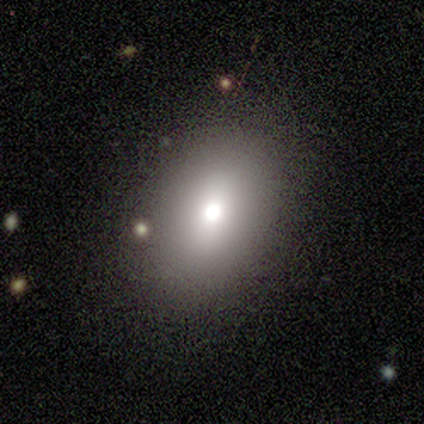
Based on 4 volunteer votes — Morphology: type=smooth (100%); roundness=in between (100%); merging=none (50%, tied with minor disturbance).